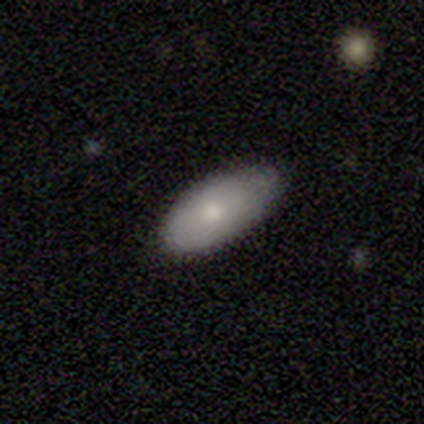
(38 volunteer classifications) Smooth or featured: smooth — 76% (star or artifact — 13%)
How rounded: in between — 93% (cigar-shaped — 7%)
Merging: none — 73% (minor disturbance — 24%)